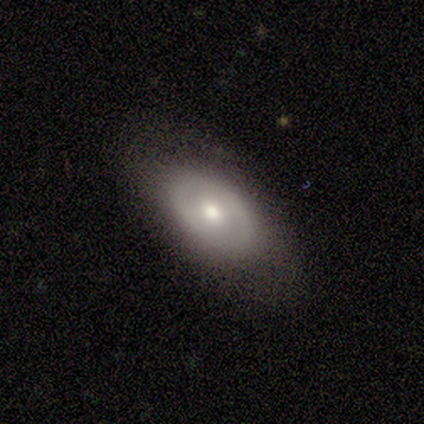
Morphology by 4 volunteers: Smooth or featured? 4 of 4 (100%) said smooth. How rounded? 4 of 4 (100%) said in between. Merging? 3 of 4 (75%) said none.